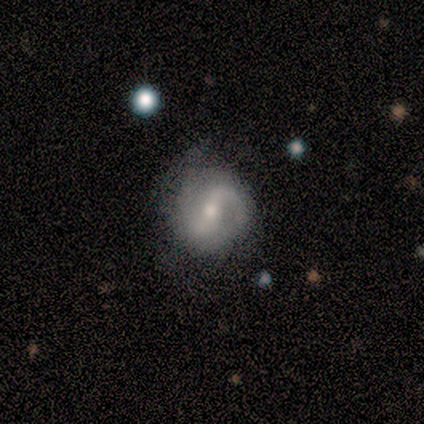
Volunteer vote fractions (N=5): This appears to be a smooth galaxy with no disk features (80%) that is round (100%). Merging: none (40%, tied with minor disturbance).